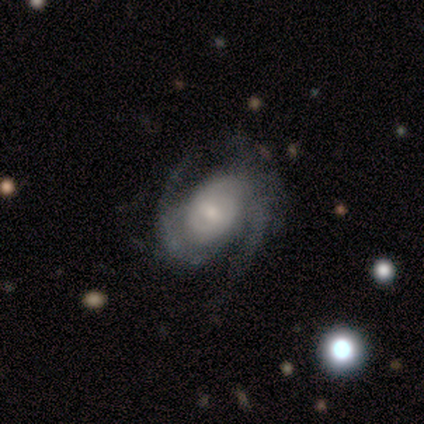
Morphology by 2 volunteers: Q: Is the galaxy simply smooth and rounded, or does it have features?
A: featured or disk — 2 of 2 (100%).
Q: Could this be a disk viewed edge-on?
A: no — 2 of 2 (100%).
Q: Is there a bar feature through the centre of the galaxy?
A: strong — 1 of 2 (50%, tied with no).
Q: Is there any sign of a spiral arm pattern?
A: yes — 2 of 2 (100%).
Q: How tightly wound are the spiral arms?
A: loose — 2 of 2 (100%).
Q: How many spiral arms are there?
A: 2 — 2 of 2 (100%).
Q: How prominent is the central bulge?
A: small — 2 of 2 (100%).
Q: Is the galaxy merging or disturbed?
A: none — 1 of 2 (50%, tied with minor disturbance).